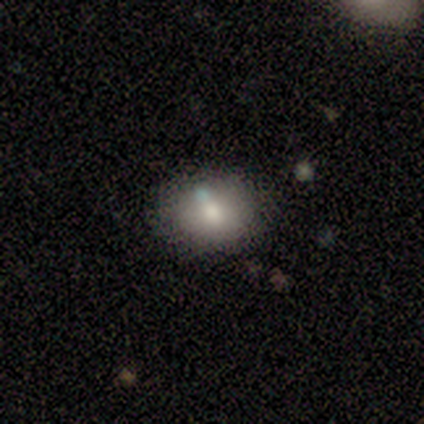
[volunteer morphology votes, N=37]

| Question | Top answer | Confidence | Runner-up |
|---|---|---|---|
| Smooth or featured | smooth | 59% | star or artifact (24%) |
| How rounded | in between | 64% | round (36%) |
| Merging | none | 75% | major disturbance (11%) |